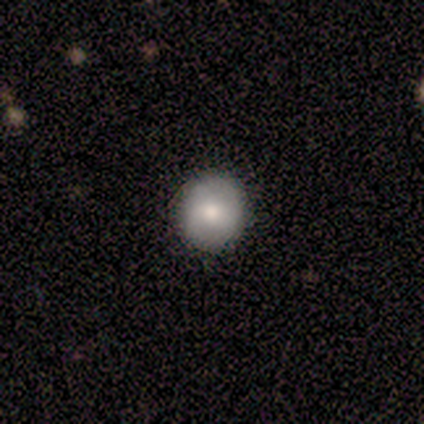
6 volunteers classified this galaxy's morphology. smooth_or_featured: smooth (p=0.83) [alt: featured or disk p=0.17]
how_rounded: round (p=1.00)
merging: none (p=1.00)